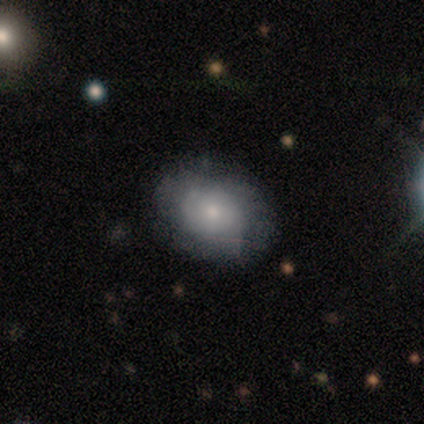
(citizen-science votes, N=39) Volunteers were most divided on "smooth or featured": smooth: 49%, featured or disk: 44%, star or artifact: 8%. More confident: merging — none (83%); how rounded — in between (63%).